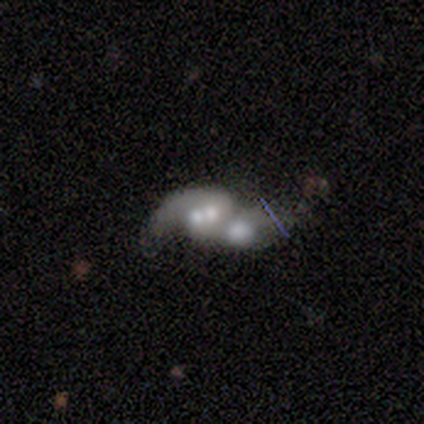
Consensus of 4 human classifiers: featured or disk 75%, star or artifact 25%, smooth 0%. Down the decision tree: edge-on disk — no (100%); bar — no (100%); spiral arms — yes (100%); spiral arm count — 2 (67%); spiral winding — loose (100%); bulge size — moderate (100%); merging — merger (67%).